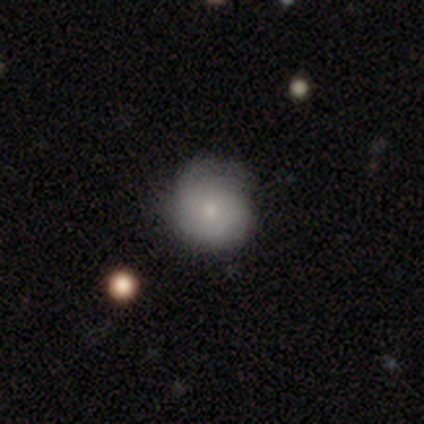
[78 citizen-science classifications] smooth 63%, featured or disk 36%, star or artifact 1%. Down the decision tree: how rounded — round (92%); merging — none (35%).